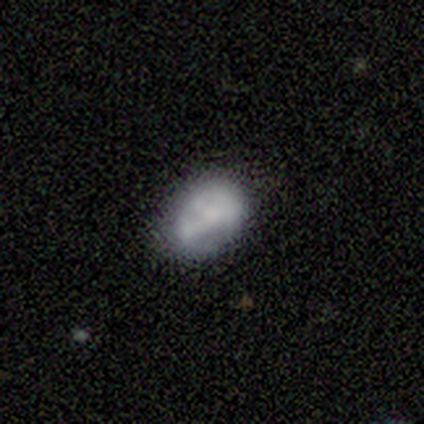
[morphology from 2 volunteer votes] smooth_or_featured: smooth (p=0.50) [tied with: featured or disk p=0.50]
how_rounded: in between (p=1.00)
merging: none (p=0.50) [tied with: major disturbance p=0.50]